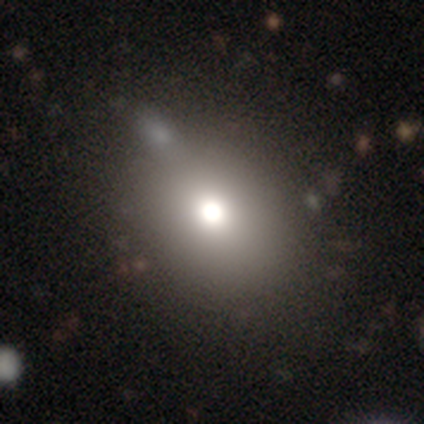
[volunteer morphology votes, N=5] Smooth or featured? 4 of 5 (80%) said smooth. How rounded? 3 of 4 (75%) said in between. Merging? 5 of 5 (100%) said none.